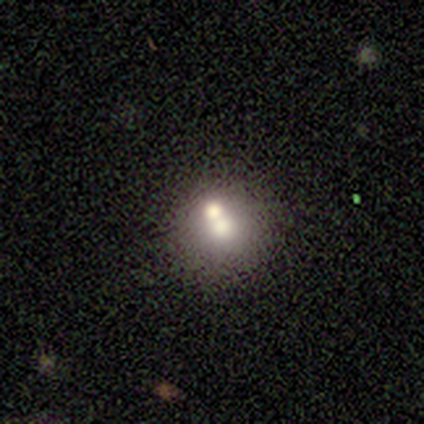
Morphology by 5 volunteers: Q: Smooth or featured?
A: smooth (60%); runner-up: featured or disk (40%)
Q: How rounded?
A: round (100%)
Q: Merging?
A: merger (60%); runner-up: none (20%)